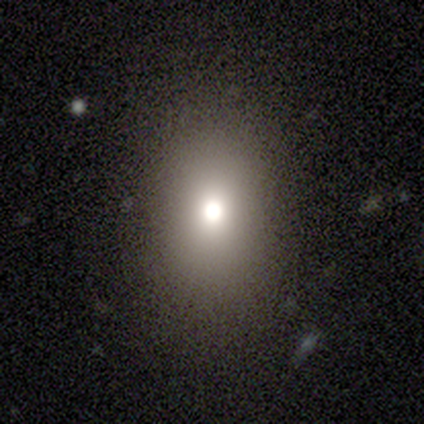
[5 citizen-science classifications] Smooth or featured?
  - smooth: 80% *
  - featured or disk: 20%
  - star or artifact: 0%
How rounded?
  - round: 50% * (tied)
  - in between: 50% * (tied)
  - cigar-shaped: 0%
Merging?
  - none: 80% *
  - minor disturbance: 20%
  - major disturbance: 0%
  - merger: 0%